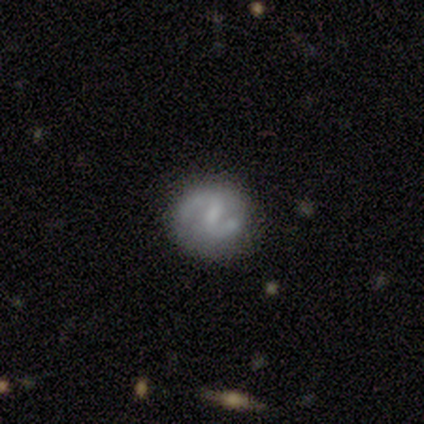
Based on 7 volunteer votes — This is clearly a featured or disk galaxy (86%). It is clearly not viewed edge-on (100%). Bar: clearly weak (83%). Spiral arm pattern: clearly yes (100%). Spiral arm count: clearly 2 (100%). Spiral winding: likely loose (67%). Central bulge: likely small (67%). Merging: clearly none (86%).